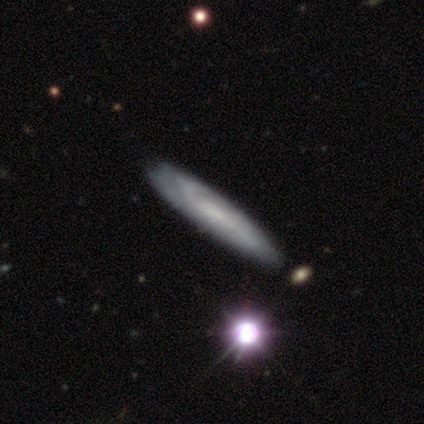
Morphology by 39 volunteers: type=featured or disk (62%); edge-on=yes (50%, tied with no); edge-on bulge=none (83%); merging=none (50%).